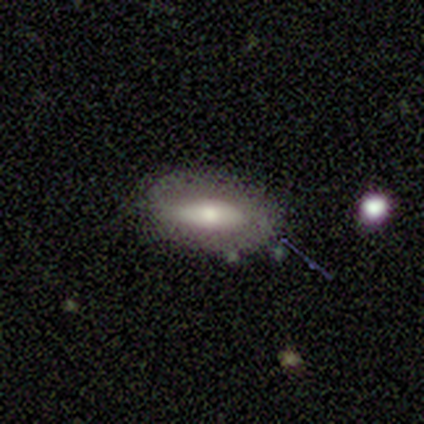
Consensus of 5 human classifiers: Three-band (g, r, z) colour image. It shows a smooth galaxy with no disk features (60%) that is in between round and cigar-shaped (67%). Merging: none (80%).